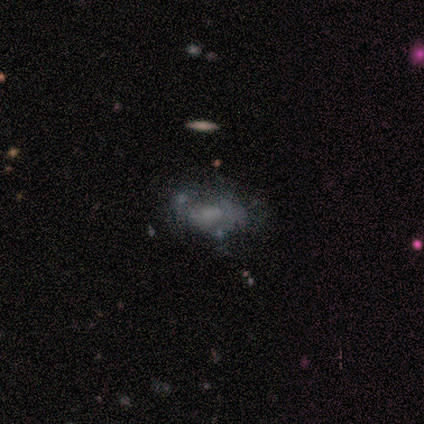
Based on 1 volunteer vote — Q: Smooth or featured?
A: star or artifact (100%)